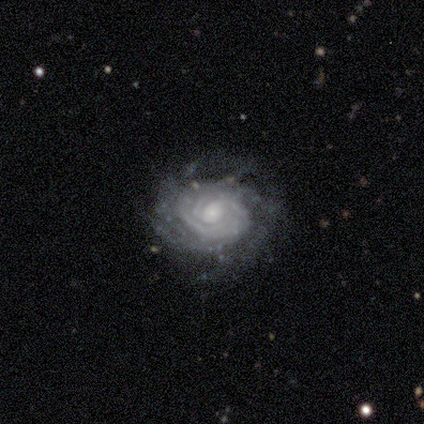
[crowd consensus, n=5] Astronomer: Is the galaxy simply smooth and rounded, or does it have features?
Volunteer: featured or disk — 80%.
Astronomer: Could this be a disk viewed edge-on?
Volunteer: no — 100%.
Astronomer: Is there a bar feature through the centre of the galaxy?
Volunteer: no — 100%.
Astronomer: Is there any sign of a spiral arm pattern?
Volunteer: yes — 100%.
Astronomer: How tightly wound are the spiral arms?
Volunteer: tight — 75%.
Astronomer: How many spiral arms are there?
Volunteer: can't tell — 50%.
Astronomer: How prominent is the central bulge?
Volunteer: moderate — 50%.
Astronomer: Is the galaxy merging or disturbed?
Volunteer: none — 75%.